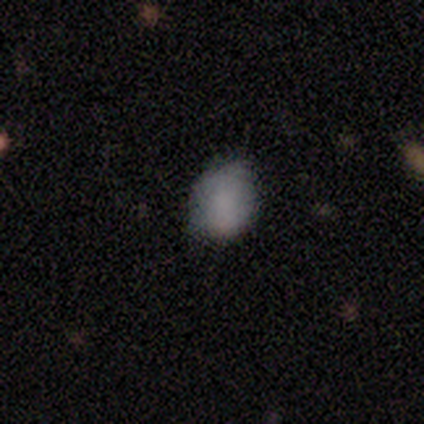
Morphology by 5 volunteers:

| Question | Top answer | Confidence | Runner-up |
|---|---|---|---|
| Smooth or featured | star or artifact | 60% | smooth (40%) |